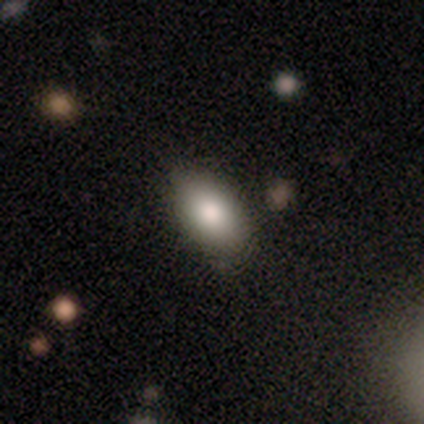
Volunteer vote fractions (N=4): smooth 75%, featured or disk 25%, star or artifact 0%. Down the decision tree: how rounded — in between (100%); merging — none (50%).